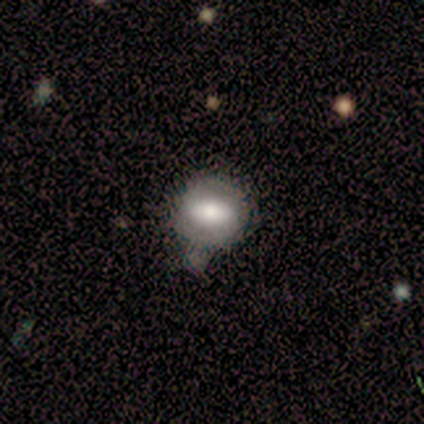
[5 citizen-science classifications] smooth_or_featured: smooth (p=0.60) [alt: featured or disk p=0.20]
how_rounded: round (p=0.67) [alt: in between p=0.33]
merging: none (p=0.50) [alt: minor disturbance p=0.25]